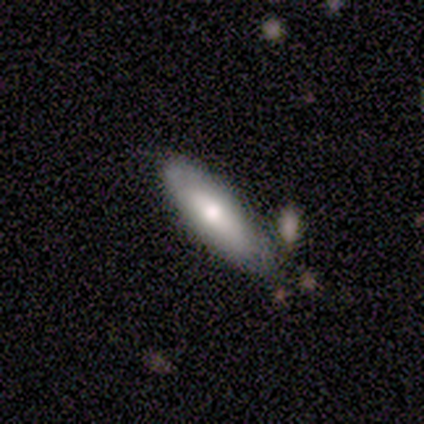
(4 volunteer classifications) Morphology: type=smooth (75%); roundness=cigar-shaped (67%); merging=none (50%, tied with minor disturbance).